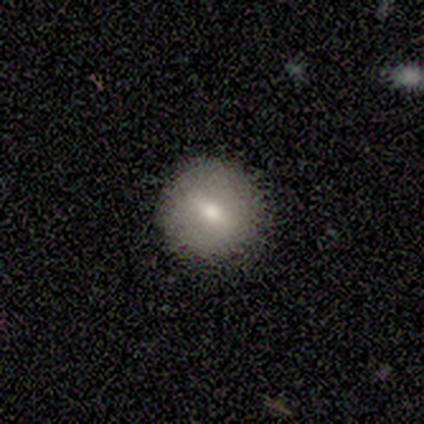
smooth-or-featured: smooth: 80% | featured or disk: 20% | star or artifact: 0%
  how-rounded: round: 100% | in between: 0% | cigar-shaped: 0%
  merging: none: 80% | major disturbance: 20% | minor disturbance: 0% | merger: 0%